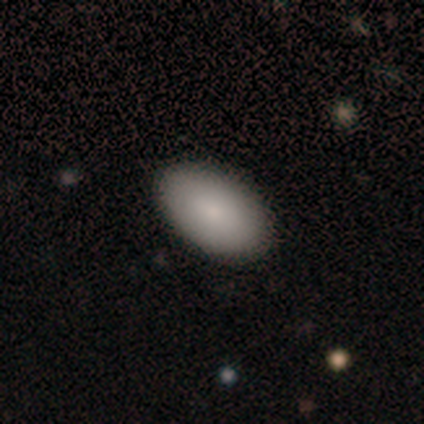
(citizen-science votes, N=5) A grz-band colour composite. It shows a smooth galaxy with no disk features (100%) that is in between round and cigar-shaped (80%). Merging: none (100%).